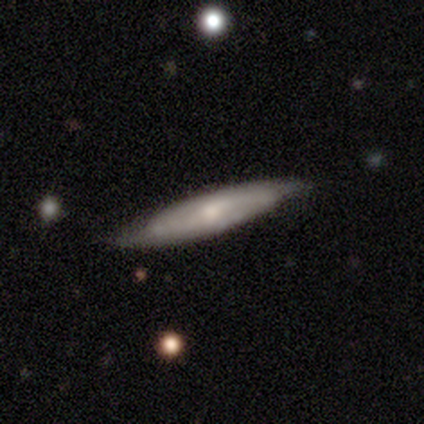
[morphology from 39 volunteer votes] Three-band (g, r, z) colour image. It shows a featured or disk galaxy (59%) with no bar (67%), 2 (50%) medium (62%) spiral arms (67%) and a moderate central bulge (50%). Merging: none (77%).